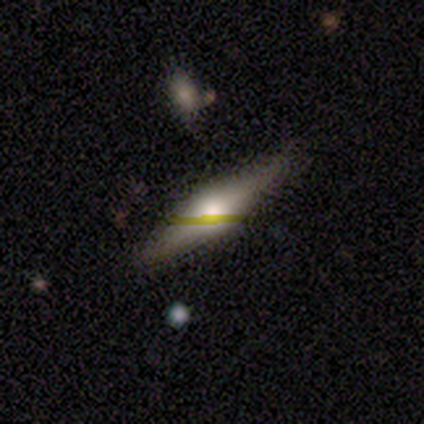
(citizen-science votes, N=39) A featured or disk galaxy (59%) viewed edge-on (96%) with a rounded central bulge (95%).

Vote fractions:
- Smooth or featured? featured or disk: 59% / smooth: 33% / star or artifact: 8%
- Edge-on disk? yes: 96% / no: 4%
- Edge-on bulge? rounded: 95% / boxy: 5% / none: 0%
- Merging? none: 64% / minor disturbance: 8% / major disturbance: 6% / merger: 0%